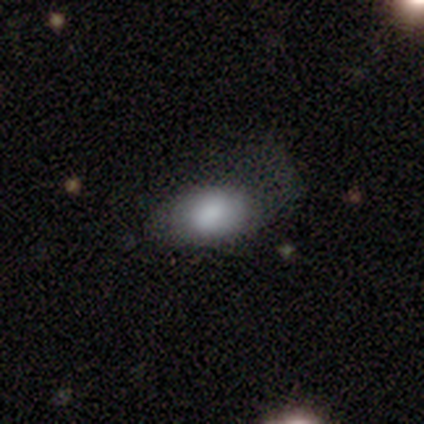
smooth 60%, featured or disk 40%, star or artifact 0%. Down the decision tree: how rounded — in between (100%); merging — minor disturbance (40%, tied with major disturbance).